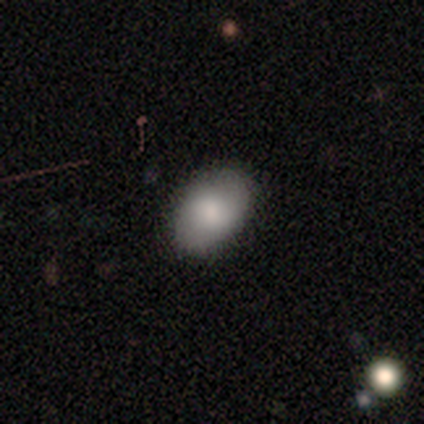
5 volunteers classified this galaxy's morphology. Smooth or featured? smooth (80%)
How rounded? in between (100%)
Merging? none (100%)